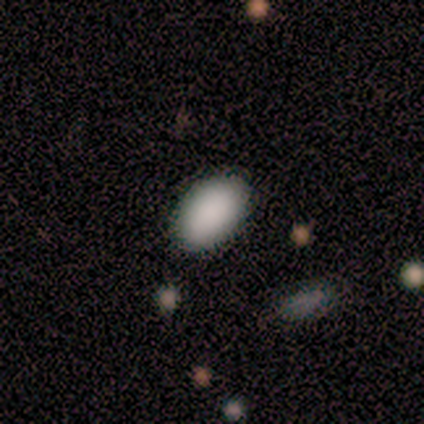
Smooth or featured? 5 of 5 (100%) said smooth. How rounded? 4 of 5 (80%) said in between. Merging? 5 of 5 (100%) said none.